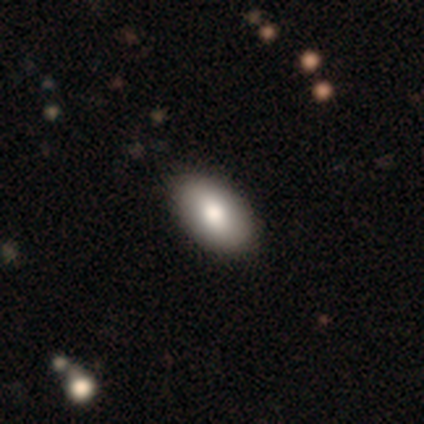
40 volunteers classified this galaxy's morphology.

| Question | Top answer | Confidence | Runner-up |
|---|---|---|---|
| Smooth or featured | smooth | 85% | featured or disk (8%) |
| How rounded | in between | 97% | cigar-shaped (3%) |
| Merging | none | 62% | merger (3%) |